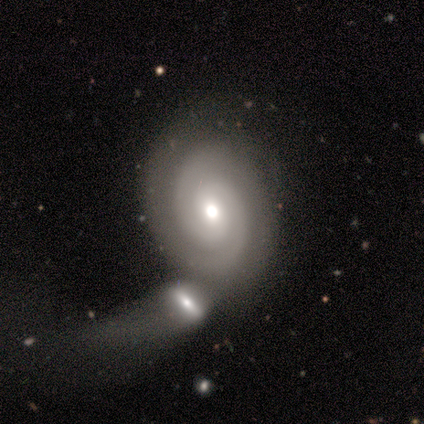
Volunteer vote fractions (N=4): Smooth or featured? 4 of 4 (100%) said featured or disk. Edge-on disk? 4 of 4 (100%) said no. Bar? 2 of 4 (50%, tied with no) said weak. Spiral arms? 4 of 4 (100%) said yes. Spiral winding? 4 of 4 (100%) said tight. Spiral arm count? 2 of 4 (50%) said 2. Bulge size? 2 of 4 (50%, tied with small) said moderate. Merging? 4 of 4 (100%) said merger.